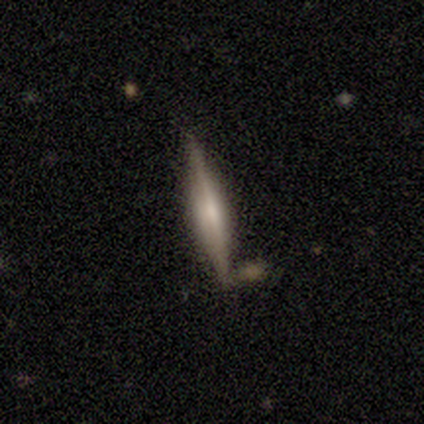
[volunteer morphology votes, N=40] Q: Smooth or featured?
A: featured or disk (62%); runner-up: smooth (32%)
Q: Edge-on disk?
A: yes (96%); runner-up: no (4%)
Q: Edge-on bulge?
A: rounded (54%); runner-up: boxy (25%)
Q: Merging?
A: none (84%); runner-up: minor disturbance (5%)